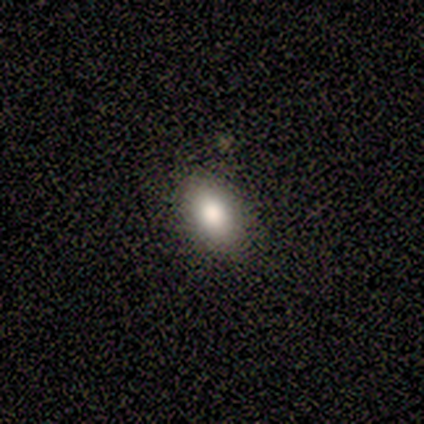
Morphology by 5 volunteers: Overall: smooth (60%; star or artifact 40%). How rounded: in between (100%). Merging: none (67%; minor disturbance 33%).